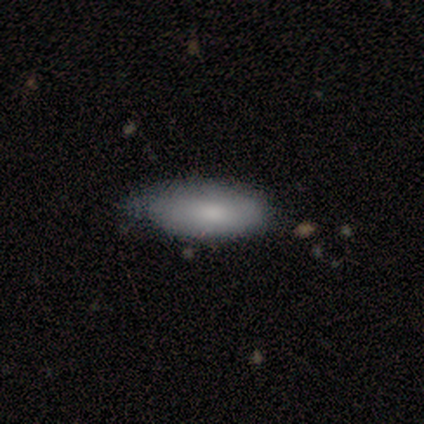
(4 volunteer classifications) Overall: smooth (75%). How rounded: in between (67%; cigar-shaped 33%). Merging: none (50%, tied with minor disturbance).